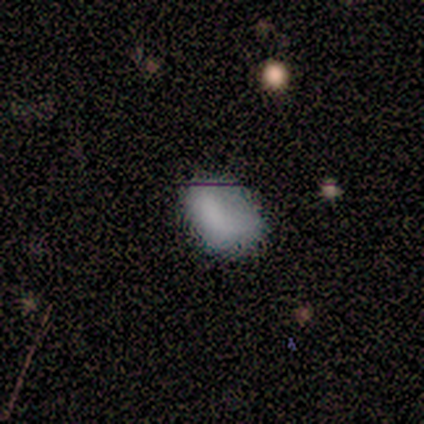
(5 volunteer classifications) A smooth galaxy with no disk features (100%) that is in between round and cigar-shaped (100%). Merging: minor disturbance (60%).